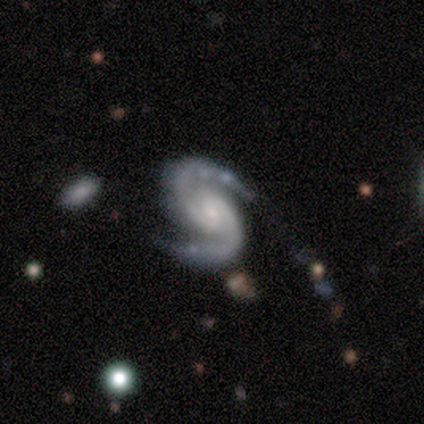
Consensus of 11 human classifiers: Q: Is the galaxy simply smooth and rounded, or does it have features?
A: featured or disk — 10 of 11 (91%).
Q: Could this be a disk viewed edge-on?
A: no — 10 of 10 (100%).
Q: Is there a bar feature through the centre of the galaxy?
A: weak — 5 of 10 (50%, tied with no).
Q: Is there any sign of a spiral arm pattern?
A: yes — 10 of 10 (100%).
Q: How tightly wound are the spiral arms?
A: medium — 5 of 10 (50%).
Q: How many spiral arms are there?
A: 2 — 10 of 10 (100%).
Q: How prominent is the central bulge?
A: small — 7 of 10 (70%).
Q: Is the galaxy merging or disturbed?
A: none — 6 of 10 (60%).